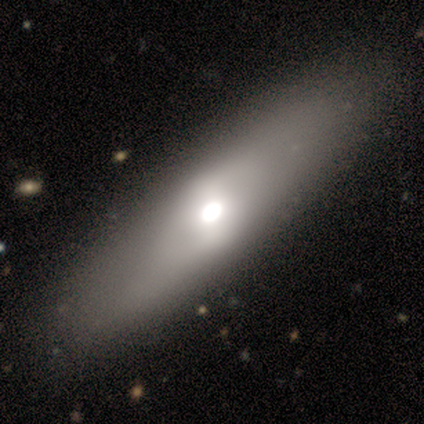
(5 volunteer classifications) Smooth or featured: smooth — 60% (featured or disk — 40%)
How rounded: in between — 67% (cigar-shaped — 33%)
Merging: none — 100%